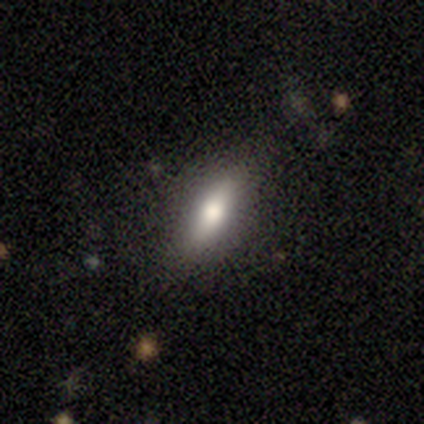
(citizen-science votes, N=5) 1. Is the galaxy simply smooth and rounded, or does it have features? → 80% smooth, 20% featured or disk, 0% star or artifact.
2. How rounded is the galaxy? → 50% in between (tied), 50% cigar-shaped (tied), 0% round.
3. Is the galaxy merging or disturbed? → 80% none, 20% major disturbance, 0% minor disturbance, 0% merger.